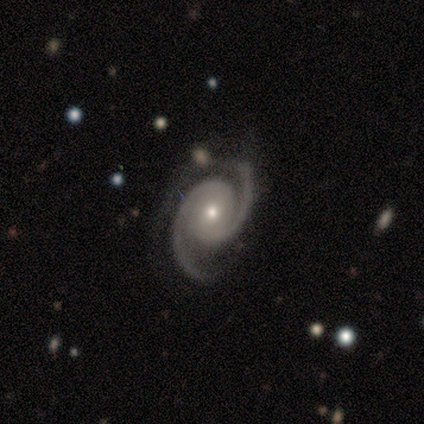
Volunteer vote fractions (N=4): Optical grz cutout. It shows a featured or disk galaxy (100%) with a weak bar (50%, tied with no), 2 (100%) loose (50%) spiral arms (100%) and a moderate central bulge (75%). Merging: none (75%).